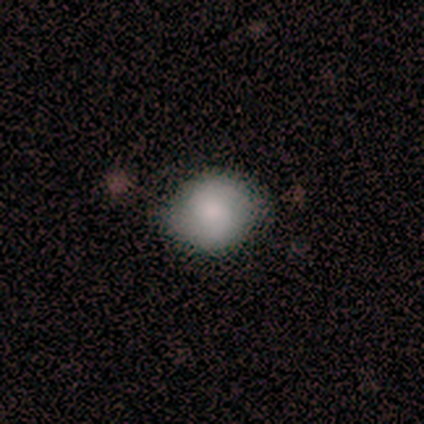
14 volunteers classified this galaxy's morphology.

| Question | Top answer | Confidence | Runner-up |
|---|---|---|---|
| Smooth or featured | smooth | 93% | star or artifact (7%) |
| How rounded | round | 85% | in between (15%) |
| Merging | none | 85% | minor disturbance (15%) |